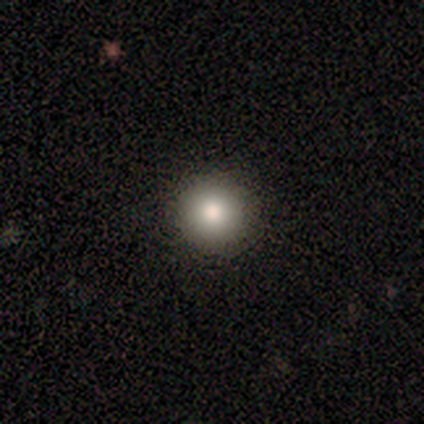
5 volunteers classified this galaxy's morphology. Smooth or featured? smooth (60%)
How rounded? round (67%)
Merging? none (100%)